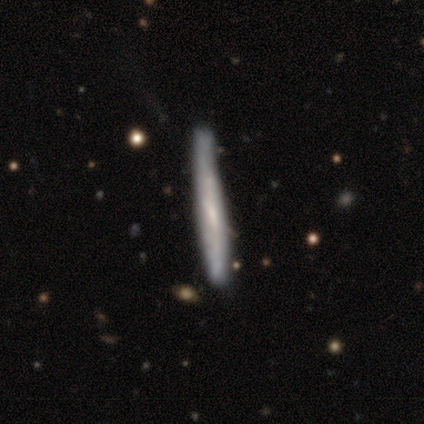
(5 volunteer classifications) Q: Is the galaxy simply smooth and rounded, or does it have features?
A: featured or disk — 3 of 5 (60%).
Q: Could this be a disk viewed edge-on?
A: yes — 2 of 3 (67%).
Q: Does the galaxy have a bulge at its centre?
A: none — 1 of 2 (50%, tied with rounded).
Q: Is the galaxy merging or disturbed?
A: none — 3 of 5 (60%).